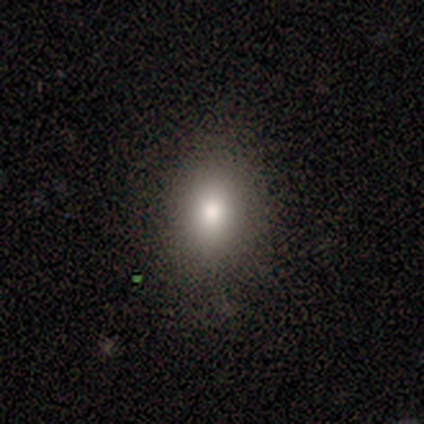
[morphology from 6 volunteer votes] A smooth galaxy with no disk features (100%) that is round (50%, tied with in between).

Vote fractions:
- Smooth or featured? smooth: 100% / featured or disk: 0% / star or artifact: 0%
- How rounded? round: 50% (tied) / in between: 50% (tied) / cigar-shaped: 0%
- Merging? none: 83% / minor disturbance: 17% / major disturbance: 0% / merger: 0%